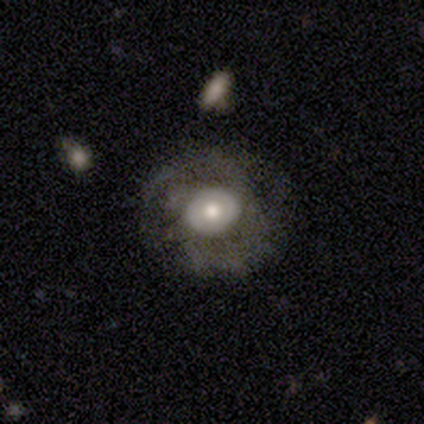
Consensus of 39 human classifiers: Q: Smooth or featured?
A: featured or disk (67%); runner-up: smooth (31%)
Q: Edge-on disk?
A: no (92%); runner-up: yes (8%)
Q: Bar?
A: no (67%); runner-up: weak (21%)
Q: Spiral arms?
A: no (54%); runner-up: yes (46%)
Q: Bulge size?
A: moderate (50%); runner-up: large (29%)
Q: Merging?
A: none (53%); runner-up: minor disturbance (29%)